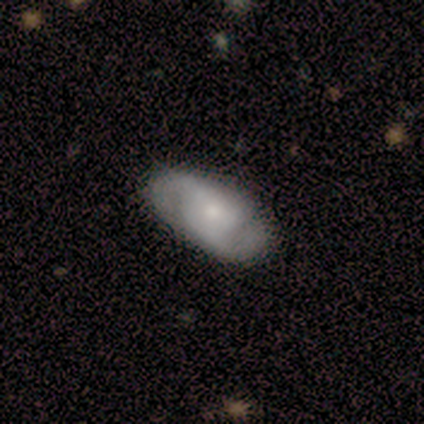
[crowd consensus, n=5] This appears to be a featured or disk galaxy (80%) with no bar (100%), 2 (100%) loose (50%) spiral arms (100%) and a moderate central bulge (50%, tied with small). Merging: none (100%).